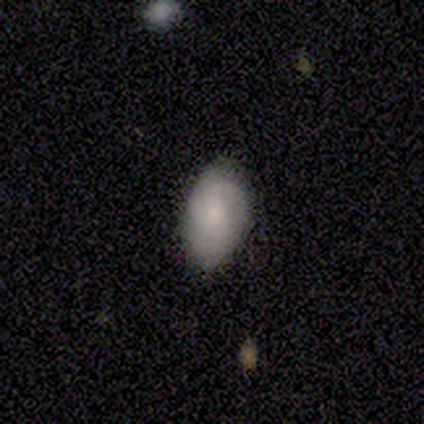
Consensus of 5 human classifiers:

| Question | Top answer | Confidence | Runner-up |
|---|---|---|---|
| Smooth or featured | smooth | 100% | — |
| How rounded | in between | 100% | — |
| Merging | none | 100% | — |